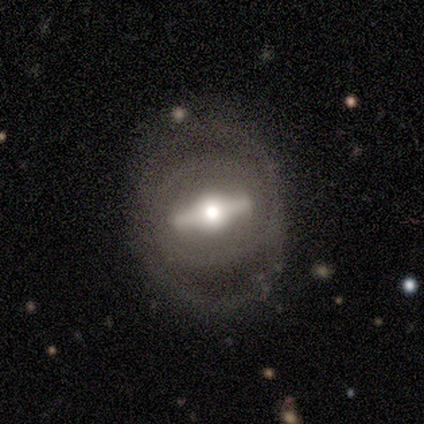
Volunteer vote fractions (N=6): A featured or disk galaxy (100%) viewed edge-on (83%) with a rounded central bulge (80%). Merging: none (50%).